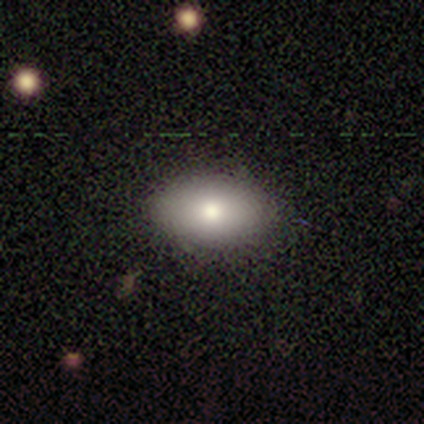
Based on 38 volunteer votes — Smooth or featured: smooth — 84% (featured or disk — 8%)
How rounded: in between — 94% (cigar-shaped — 6%)
Merging: none — 83% (minor disturbance — 17%)